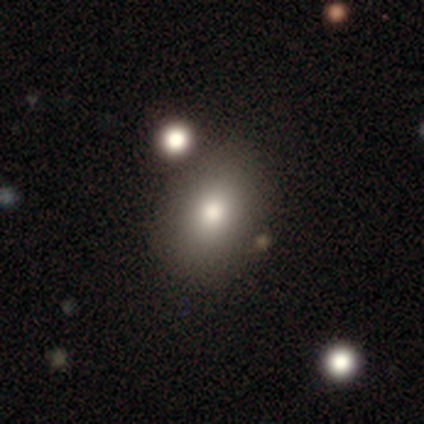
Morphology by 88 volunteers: smooth-or-featured: smooth: 70% | featured or disk: 16% | star or artifact: 14%
  how-rounded: in between: 66% | round: 32% | cigar-shaped: 2%
  merging: none: 68% | minor disturbance: 18% | major disturbance: 7% | merger: 7%